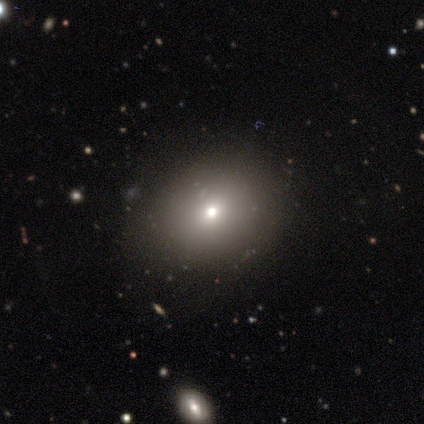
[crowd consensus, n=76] Smooth or featured? 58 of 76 (76%) said smooth. How rounded? 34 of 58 (59%) said round. Merging? 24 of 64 (38%) said none.